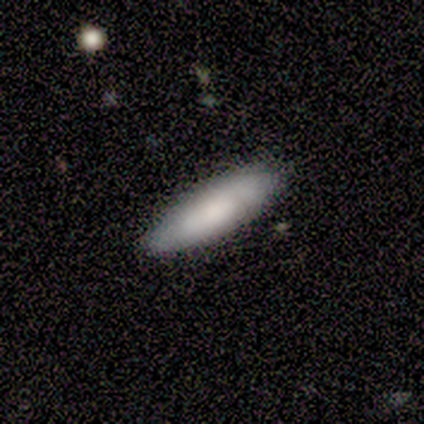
Smooth or featured? 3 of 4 (75%) said smooth. How rounded? 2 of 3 (67%) said cigar-shaped. Merging? 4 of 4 (100%) said none.